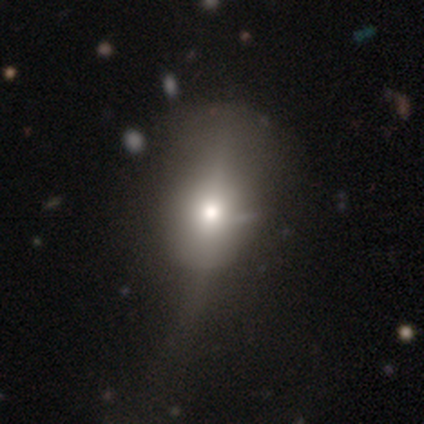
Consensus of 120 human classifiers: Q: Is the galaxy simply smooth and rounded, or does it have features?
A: smooth — 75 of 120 (62%).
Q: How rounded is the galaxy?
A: in between — 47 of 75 (63%).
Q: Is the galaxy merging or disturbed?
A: none — 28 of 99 (28%).